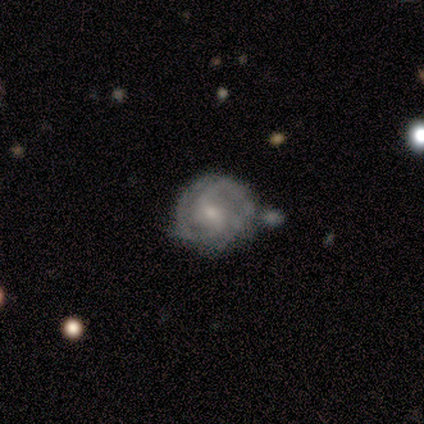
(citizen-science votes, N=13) smooth_or_featured: featured or disk (p=0.85) [alt: smooth p=0.08]
disk_edge_on: no (p=1.00)
bar: weak (p=0.55) [alt: no p=0.27]
has_spiral_arms: yes (p=0.91) [alt: no p=0.09]
spiral_winding: tight (p=0.50) [alt: medium p=0.40]
spiral_arm_count: 2 (p=0.70) [alt: can't tell p=0.20]
bulge_size: moderate (p=0.55) [alt: small p=0.45]
merging: none (p=0.42) [tied with: minor disturbance p=0.42]